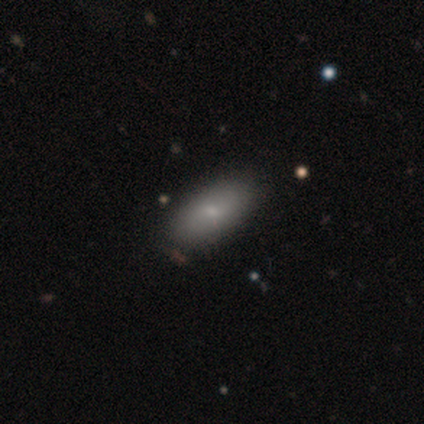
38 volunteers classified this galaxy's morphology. This is likely a smooth galaxy (76%). How rounded: clearly in between (100%). Merging: clearly none (87%).